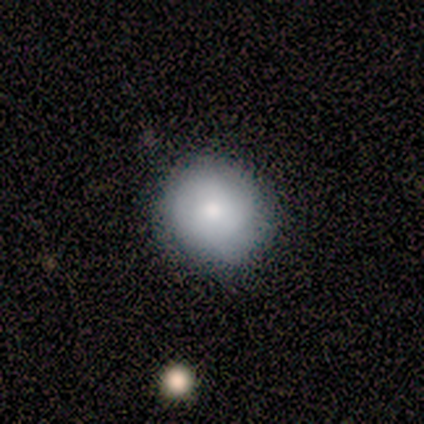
A smooth galaxy with no disk features (80%) that is round (100%).

Vote fractions:
- Smooth or featured? smooth: 80% / featured or disk: 20% / star or artifact: 0%
- How rounded? round: 100% / in between: 0% / cigar-shaped: 0%
- Merging? none: 80% / minor disturbance: 20% / major disturbance: 0% / merger: 0%